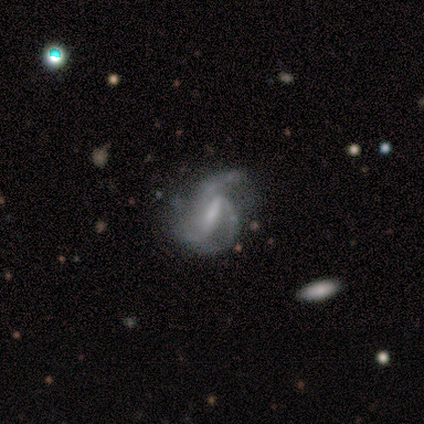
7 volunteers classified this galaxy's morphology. Volunteers were most divided on "spiral winding": medium: 50%, tight: 25%, loose: 25%. More confident: smooth or featured — featured or disk (86%); edge-on disk — no (83%); bar — strong (80%); spiral arms — yes (80%); spiral arm count — 2 (75%); merging — major disturbance (67%); bulge size — none (60%).